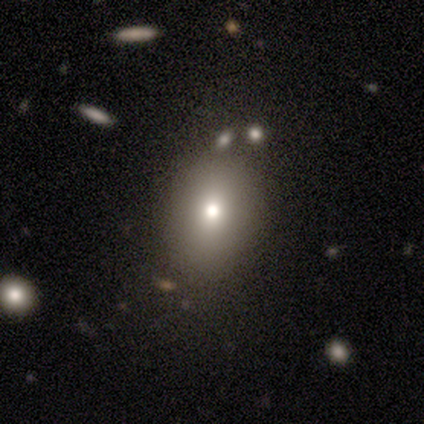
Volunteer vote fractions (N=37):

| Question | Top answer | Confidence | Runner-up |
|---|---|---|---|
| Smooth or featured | smooth | 89% | featured or disk (5%) |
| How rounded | in between | 76% | round (24%) |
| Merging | none | 57% | minor disturbance (11%) |